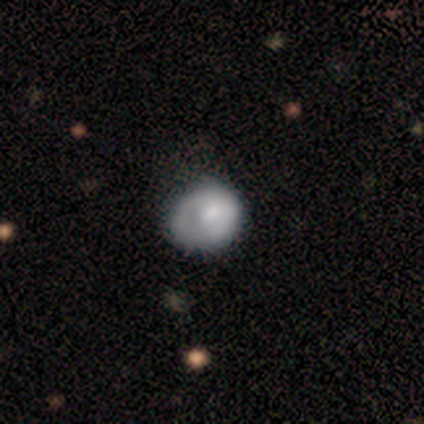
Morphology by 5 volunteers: Smooth or featured?
  - smooth: 80% *
  - featured or disk: 20%
  - star or artifact: 0%
How rounded?
  - round: 75% *
  - in between: 25%
  - cigar-shaped: 0%
Merging?
  - none: 80% *
  - minor disturbance: 20%
  - major disturbance: 0%
  - merger: 0%